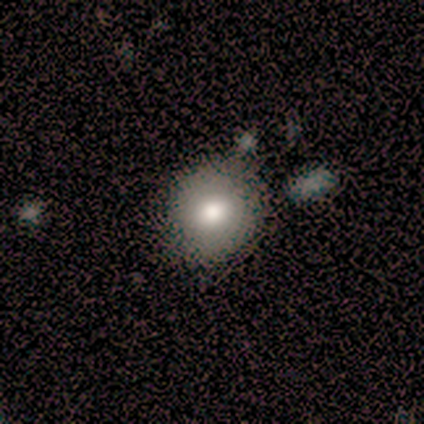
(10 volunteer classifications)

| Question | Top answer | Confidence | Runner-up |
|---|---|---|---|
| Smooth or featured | smooth | 70% | star or artifact (20%) |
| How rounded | round | 71% | in between (29%) |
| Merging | none | 100% | — |